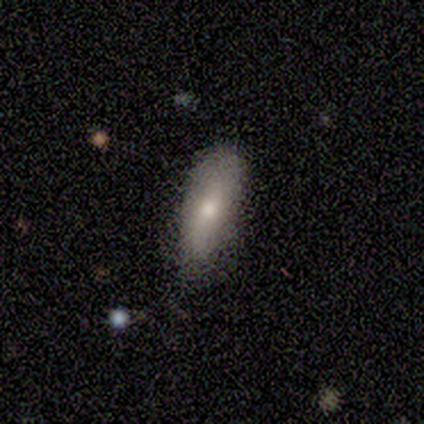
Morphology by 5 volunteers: Overall: smooth (80%). How rounded: in between (75%). Merging: none (80%).